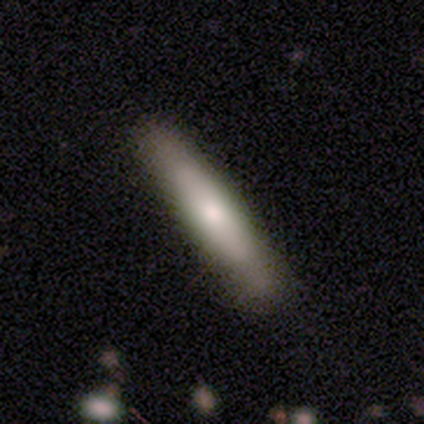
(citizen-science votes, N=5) Q: Smooth or featured?
A: smooth (60%); runner-up: featured or disk (40%)
Q: How rounded?
A: cigar-shaped (100%)
Q: Merging?
A: none (100%)